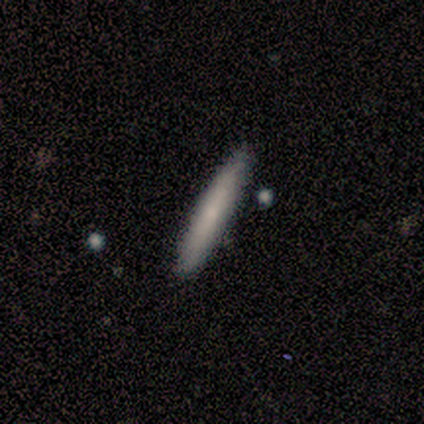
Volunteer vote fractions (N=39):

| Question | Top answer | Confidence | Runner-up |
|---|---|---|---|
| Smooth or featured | smooth | 77% | featured or disk (23%) |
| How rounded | cigar-shaped | 97% | round (3%) |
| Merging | none | 87% | minor disturbance (10%) |